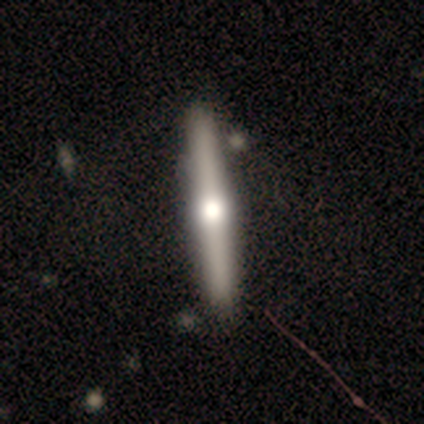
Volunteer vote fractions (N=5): Volunteers were most divided on "smooth or featured": featured or disk: 60%, smooth: 20%, star or artifact: 20%. More confident: edge-on disk — yes (100%); edge-on bulge — rounded (100%); merging — none (100%).